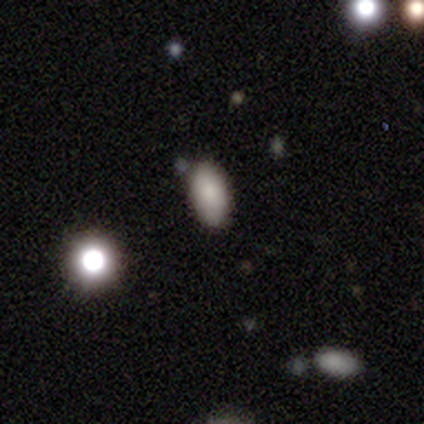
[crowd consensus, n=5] smooth-or-featured: smooth: 60% | star or artifact: 40% | featured or disk: 0%
  how-rounded: in between: 100% | round: 0% | cigar-shaped: 0%
  merging: none: 100% | minor disturbance: 0% | major disturbance: 0% | merger: 0%